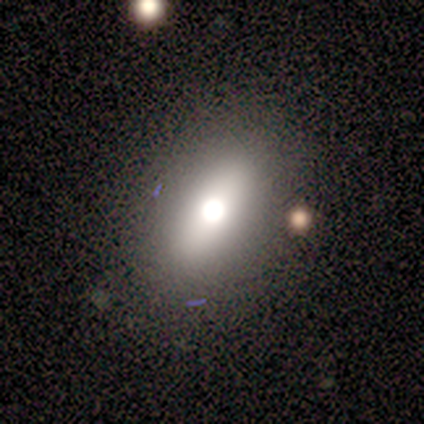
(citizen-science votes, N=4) Volunteers were most divided on "smooth or featured": smooth: 50%, featured or disk: 25%, star or artifact: 25%. More confident: how rounded — in between (100%); merging — none (67%).